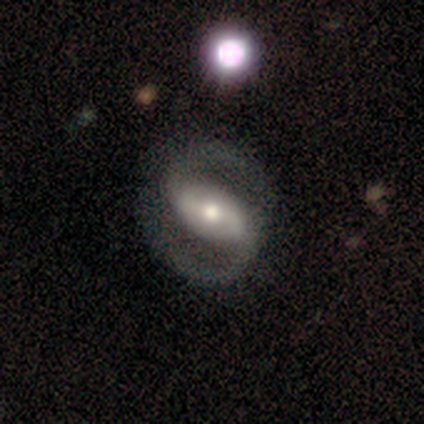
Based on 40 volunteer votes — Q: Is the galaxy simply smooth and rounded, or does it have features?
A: featured or disk — 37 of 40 (92%).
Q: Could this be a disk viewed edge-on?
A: no — 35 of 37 (95%).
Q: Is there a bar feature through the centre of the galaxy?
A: strong — 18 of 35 (51%).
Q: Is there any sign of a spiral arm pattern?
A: yes — 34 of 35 (97%).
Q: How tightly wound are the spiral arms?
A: medium — 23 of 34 (68%).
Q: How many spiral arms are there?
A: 2 — 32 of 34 (94%).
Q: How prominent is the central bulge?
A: moderate — 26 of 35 (74%).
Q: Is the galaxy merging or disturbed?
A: none — 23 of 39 (59%).